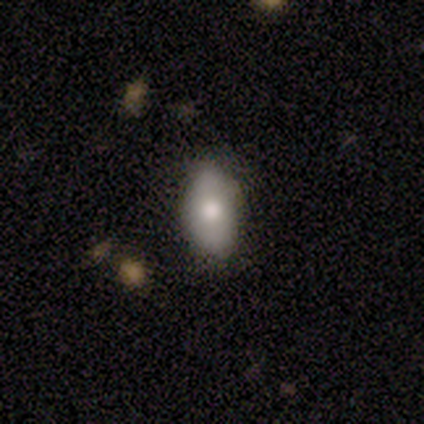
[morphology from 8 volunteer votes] Overall: smooth (100%). How rounded: in between (100%). Merging: none (62%; minor disturbance 38%).